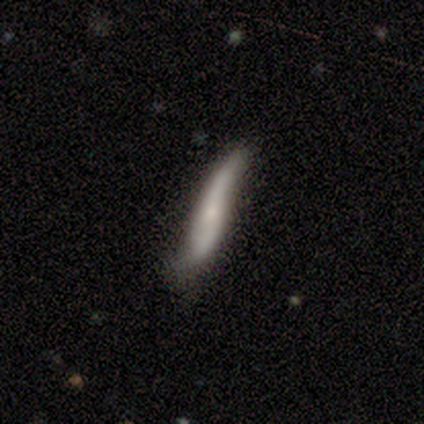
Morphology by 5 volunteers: Q: Smooth or featured?
A: smooth (60%); runner-up: featured or disk (20%)
Q: How rounded?
A: cigar-shaped (100%)
Q: Merging?
A: none (50%); runner-up: minor disturbance (25%)